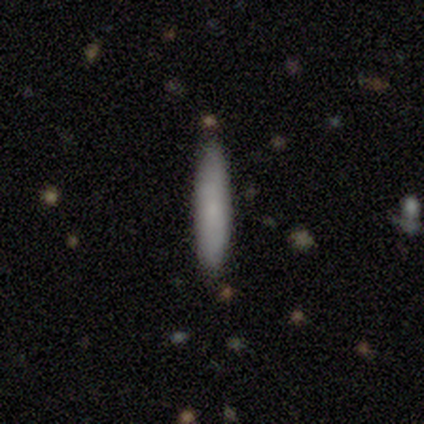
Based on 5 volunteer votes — Morphology: type=smooth (100%); roundness=cigar-shaped (80%); merging=none (100%).